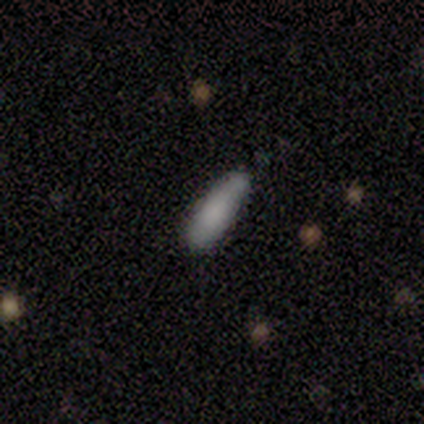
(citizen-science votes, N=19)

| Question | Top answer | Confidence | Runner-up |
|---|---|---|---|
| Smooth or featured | smooth | 84% | star or artifact (11%) |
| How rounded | in between | 62% | cigar-shaped (38%) |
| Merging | none | 82% | minor disturbance (18%) |